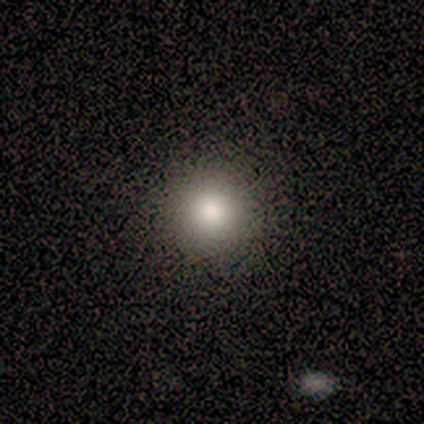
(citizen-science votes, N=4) Volunteers were most divided on "smooth or featured": smooth: 75%, featured or disk: 25%, star or artifact: 0%. More confident: how rounded — round (100%); merging — none (100%).